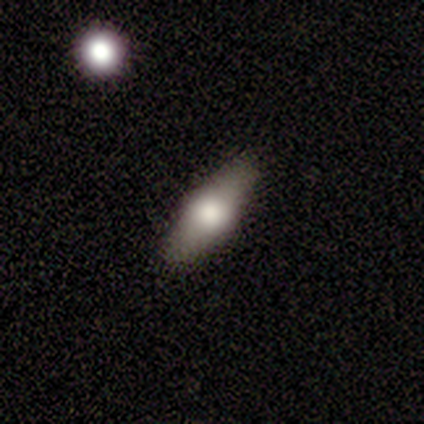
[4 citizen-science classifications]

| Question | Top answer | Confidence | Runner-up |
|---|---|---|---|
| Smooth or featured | featured or disk | 75% | star or artifact (25%) |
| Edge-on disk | yes | 100% | — |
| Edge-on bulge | rounded | 67% | boxy (33%) |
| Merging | none | 100% | — |